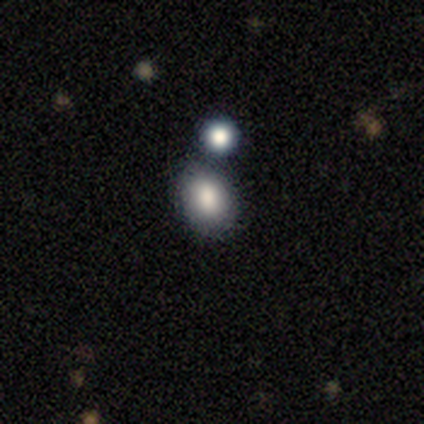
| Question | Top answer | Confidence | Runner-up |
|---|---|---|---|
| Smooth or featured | smooth | 100% | — |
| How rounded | in between | 80% | round (20%) |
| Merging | merger | 60% | none (40%) |